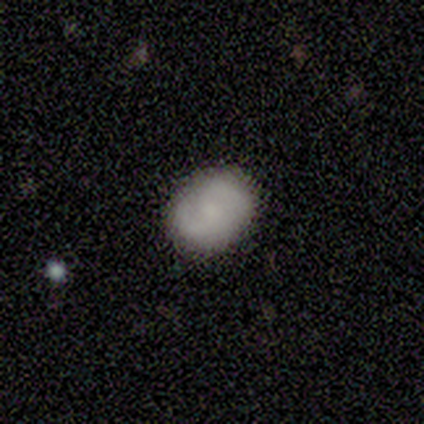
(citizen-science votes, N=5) Smooth or featured?
  - featured or disk: 60% *
  - smooth: 40%
  - star or artifact: 0%
Edge-on disk?
  - no: 100% *
  - yes: 0%
Bar?
  - no: 100% *
  - strong: 0%
  - weak: 0%
Spiral arms?
  - yes: 100% *
  - no: 0%
Spiral winding?
  - tight: 67% *
  - medium: 33%
  - loose: 0%
Spiral arm count?
  - 2: 100% *
  - 1: 0%
  - 3: 0%
  - 4: 0%
  - more than 4: 0%
  - can't tell: 0%
Bulge size?
  - small: 67% *
  - none: 33%
  - dominant: 0%
  - large: 0%
  - moderate: 0%
Merging?
  - none: 100% *
  - minor disturbance: 0%
  - major disturbance: 0%
  - merger: 0%